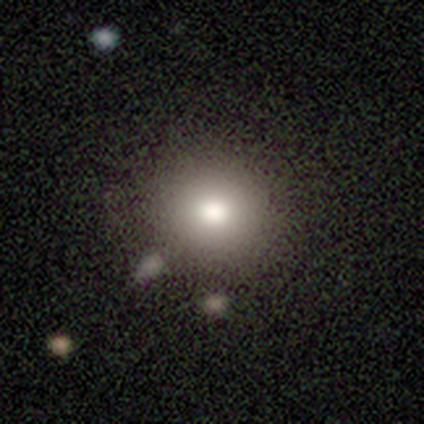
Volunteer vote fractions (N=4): Morphology: type=smooth (100%); roundness=round (100%); merging=none (100%).